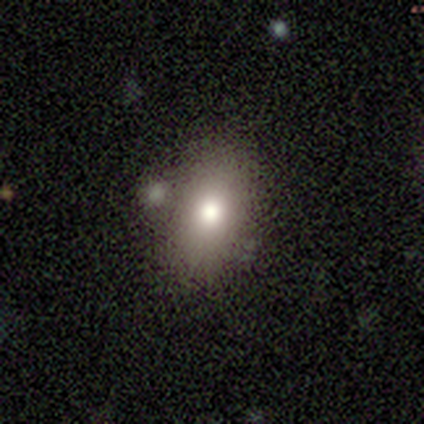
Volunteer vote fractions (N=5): Volunteers were most divided on "smooth or featured": smooth: 60%, featured or disk: 20%, star or artifact: 20%. More confident: how rounded — in between (100%); merging — none (75%).